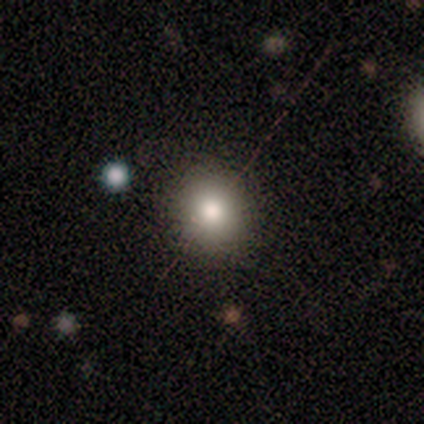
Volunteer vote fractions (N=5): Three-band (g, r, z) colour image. It shows a smooth galaxy with no disk features (60%) that is round (67%). Merging: none (100%).